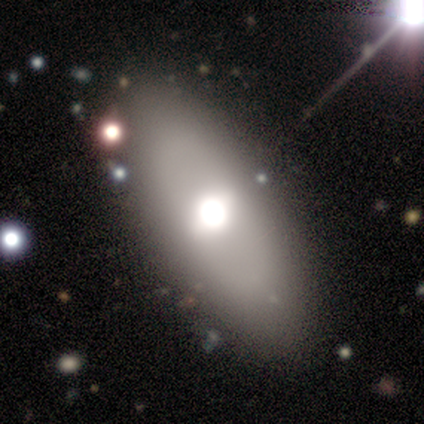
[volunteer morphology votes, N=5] smooth 80%, star or artifact 20%, featured or disk 0%. Down the decision tree: how rounded — in between (75%); merging — none (75%).